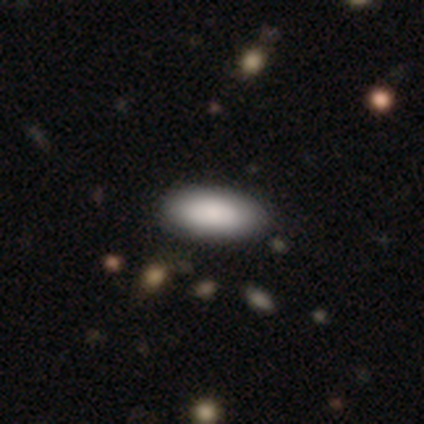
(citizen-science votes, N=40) A smooth galaxy with no disk features (85%) that is in between round and cigar-shaped (76%).

Vote fractions:
- Smooth or featured? smooth: 85% / featured or disk: 10% / star or artifact: 5%
- How rounded? in between: 76% / cigar-shaped: 21% / round: 3%
- Merging? none: 45% / merger: 5% / minor disturbance: 3% / major disturbance: 0%